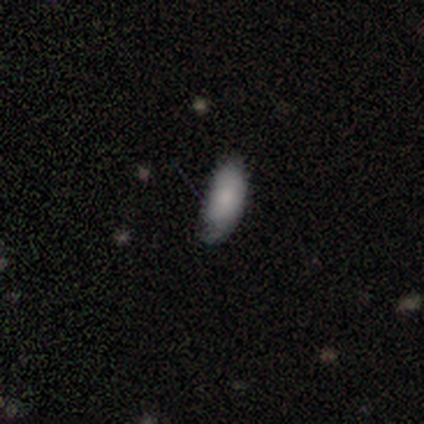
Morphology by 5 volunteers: smooth-or-featured: smooth: 100% | featured or disk: 0% | star or artifact: 0%
  how-rounded: in between: 100% | round: 0% | cigar-shaped: 0%
  merging: minor disturbance: 60% | none: 40% | major disturbance: 0% | merger: 0%